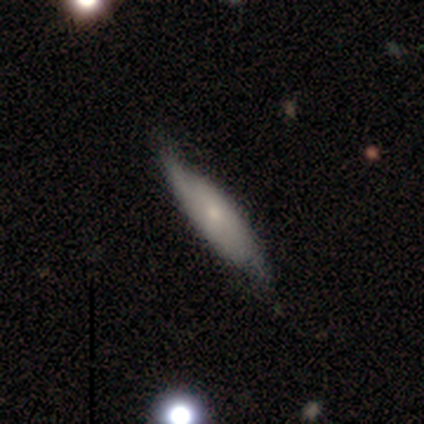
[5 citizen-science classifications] Volunteers were most divided on "bar" (2-way tie): weak: 50%, no: 50%, strong: 0%; "bulge size" (2-way tie): moderate: 50%, small: 50%, dominant: 0%, large: 0%, none: 0%; "merging" (2-way tie): none: 50%, minor disturbance: 50%, major disturbance: 0%, merger: 0%. More confident: spiral arms — yes (100%); spiral winding — tight (100%); spiral arm count — 2 (100%); edge-on disk — no (67%); smooth or featured — featured or disk (60%).